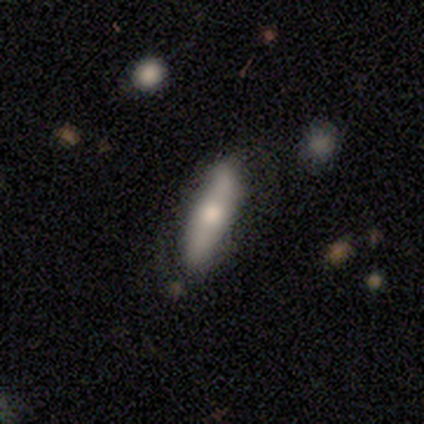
This is clearly a smooth galaxy (100%). How rounded: likely cigar-shaped (60%). Merging: marginally none (40%).